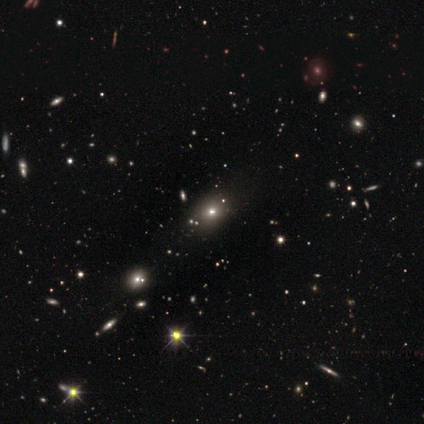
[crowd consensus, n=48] smooth-or-featured: smooth: 73% | star or artifact: 21% | featured or disk: 6%
  how-rounded: in between: 66% | round: 29% | cigar-shaped: 6%
  merging: none: 82% | minor disturbance: 13% | major disturbance: 3% | merger: 3%